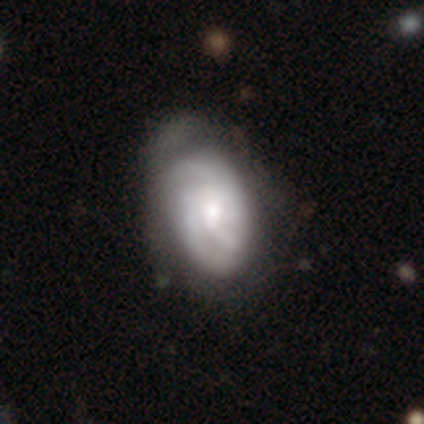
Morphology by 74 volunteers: smooth_or_featured: featured or disk (p=0.66) [alt: smooth p=0.30]
disk_edge_on: no (p=0.98) [alt: yes p=0.02]
bar: no (p=0.65) [alt: weak p=0.33]
has_spiral_arms: yes (p=0.81) [alt: no p=0.19]
spiral_winding: tight (p=0.62) [alt: medium p=0.36]
spiral_arm_count: can't tell (p=0.46) [alt: 2 p=0.28]
bulge_size: moderate (p=0.54) [alt: small p=0.25]
merging: none (p=0.25) [alt: minor disturbance p=0.17]